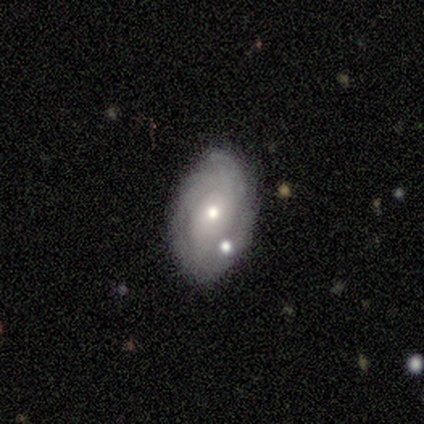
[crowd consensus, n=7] A featured or disk galaxy (100%) with no bar (100%), tight (57%) spiral arms (100%) and a small central bulge (86%).

Vote fractions:
- Smooth or featured? featured or disk: 100% / smooth: 0% / star or artifact: 0%
- Edge-on disk? no: 100% / yes: 0%
- Bar? no: 100% / strong: 0% / weak: 0%
- Spiral arms? yes: 100% / no: 0%
- Spiral winding? tight: 57% / loose: 29% / medium: 14%
- Spiral arm count? can't tell: 57% / 3: 29% / 2: 14% / 1: 0% / 4: 0% / more than 4: 0%
- Bulge size? small: 86% / moderate: 14% / dominant: 0% / large: 0% / none: 0%
- Merging? none: 57% / minor disturbance: 43% / major disturbance: 0% / merger: 0%